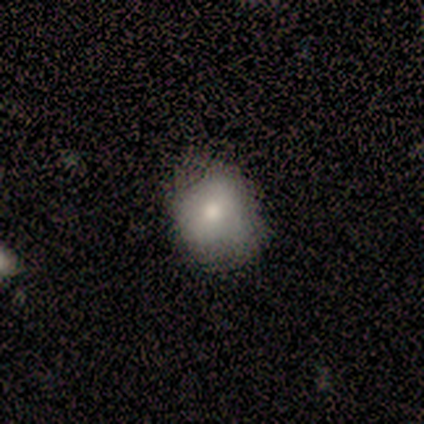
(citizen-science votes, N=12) Q: Smooth or featured?
A: smooth (83%); runner-up: featured or disk (8%)
Q: How rounded?
A: round (50%); tied with: in between (50%)
Q: Merging?
A: none (55%); runner-up: minor disturbance (36%)